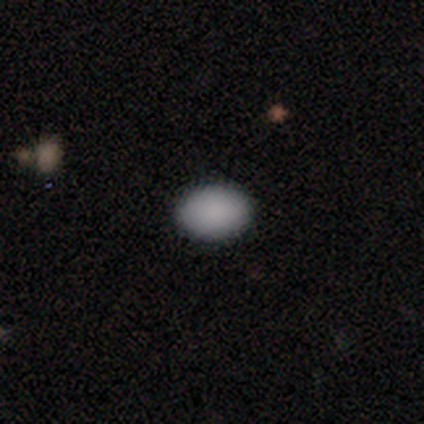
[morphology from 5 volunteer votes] This is likely a smooth galaxy (60%). How rounded: clearly in between (100%). Merging: clearly none (100%).